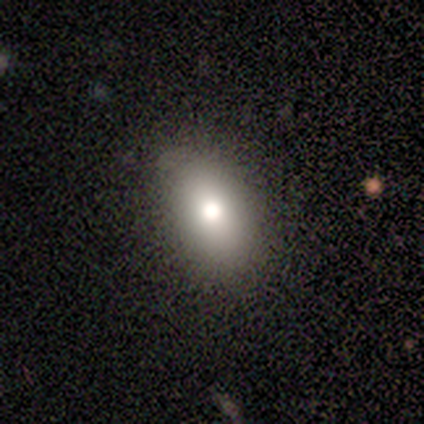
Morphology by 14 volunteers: Smooth or featured? 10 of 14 (71%) said smooth. How rounded? 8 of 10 (80%) said in between. Merging? 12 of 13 (92%) said none.